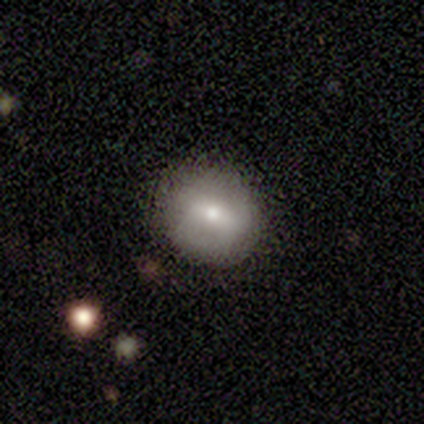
Morphology: type=smooth (80%); roundness=round (100%); merging=none (100%).